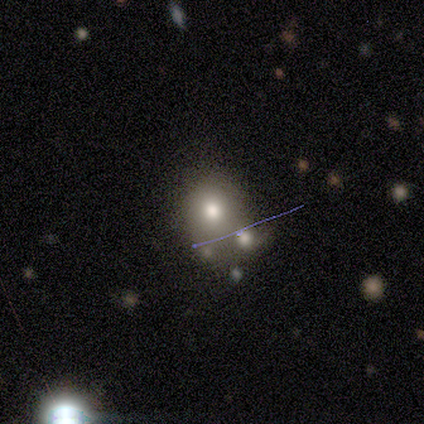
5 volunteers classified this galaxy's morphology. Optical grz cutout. It shows a smooth galaxy with no disk features (60%) that is round (100%). Merging: none (50%).